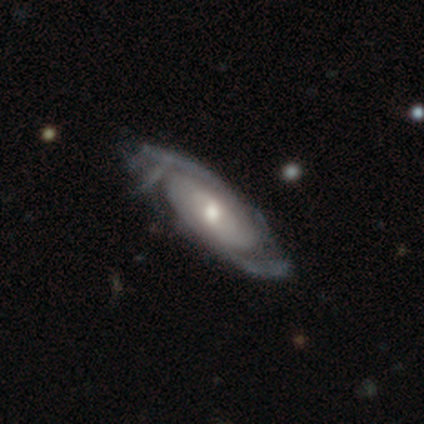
smooth-or-featured: featured or disk: 85% | smooth: 14% | star or artifact: 1%
  disk-edge-on: no: 91% | yes: 9%
    bar: no: 70% | weak: 26% | strong: 3%
    has-spiral-arms: yes: 98% | no: 2%
      spiral-winding: tight: 57% | medium: 32% | loose: 12%
      spiral-arm-count: 2: 42% | can't tell: 33% | 3: 13% | 4: 10% | more than 4: 2% | 1: 0%
    bulge-size: moderate: 66% | small: 28% | large: 5% | dominant: 2% | none: 0%
  merging: none: 40% | minor disturbance: 15% | major disturbance: 10% | merger: 0%